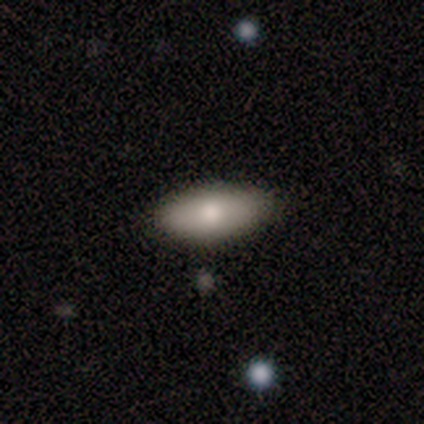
Smooth or featured?
  - smooth: 80% *
  - featured or disk: 20%
  - star or artifact: 0%
How rounded?
  - in between: 100% *
  - round: 0%
  - cigar-shaped: 0%
Merging?
  - none: 100% *
  - minor disturbance: 0%
  - major disturbance: 0%
  - merger: 0%